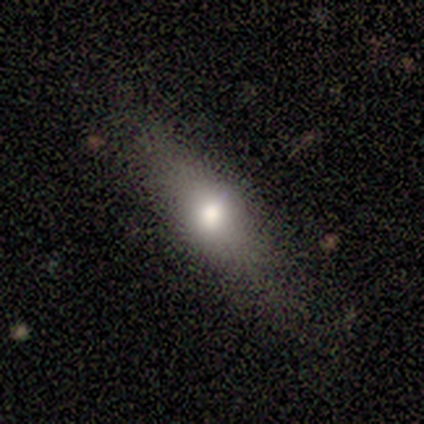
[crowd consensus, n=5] Q: Smooth or featured?
A: smooth (80%); runner-up: featured or disk (20%)
Q: How rounded?
A: in between (50%); tied with: cigar-shaped (50%)
Q: Merging?
A: none (100%)